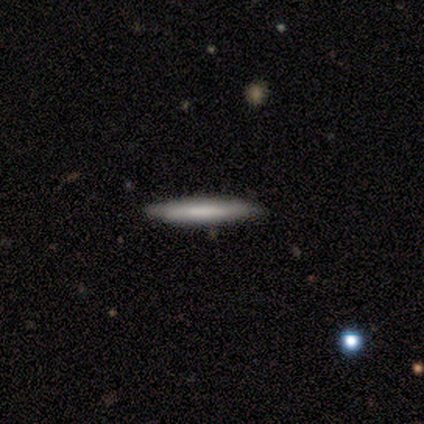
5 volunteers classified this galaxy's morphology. Volunteers were most divided on "smooth or featured" (2-way tie): smooth: 40%, featured or disk: 40%, star or artifact: 20%. More confident: how rounded — cigar-shaped (100%); merging — none (50%).